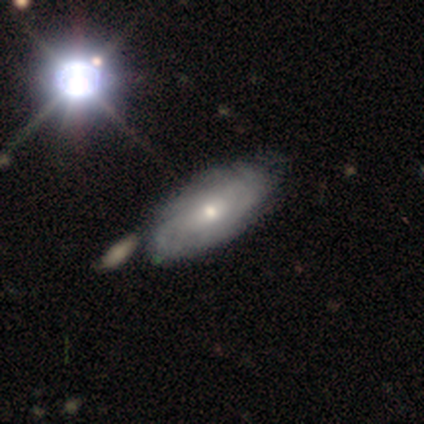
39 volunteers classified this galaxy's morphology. Smooth or featured: featured or disk — 64% (smooth — 26%)
Edge-on disk: no — 100%
Bar: no — 72% (weak — 24%)
Spiral arms: yes — 88% (no — 12%)
Spiral winding: tight — 73% (medium — 18%)
Spiral arm count: can't tell — 55% (2 — 14%)
Bulge size: moderate — 52% (small — 48%)
Merging: none — 46% (merger — 23%)